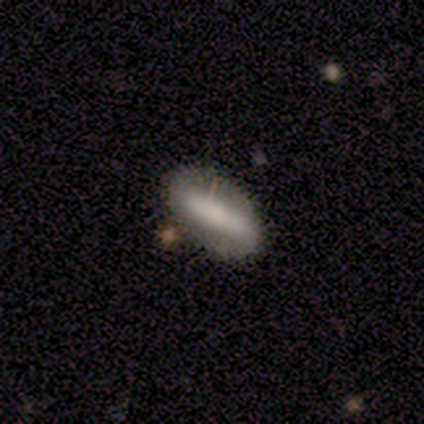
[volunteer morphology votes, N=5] Smooth or featured? featured or disk (60%)
Edge-on disk? no (67%)
Bar? strong (50%, tied with no)
Spiral arms? no (100%)
Bulge size? large (50%, tied with small)
Merging? none (100%)